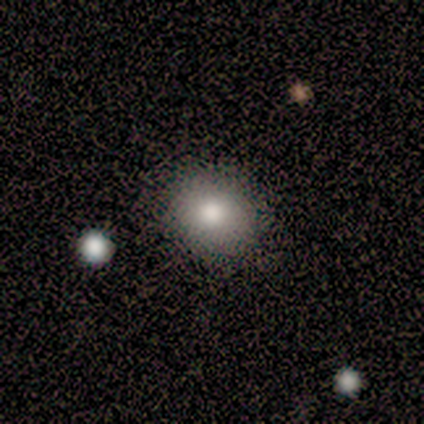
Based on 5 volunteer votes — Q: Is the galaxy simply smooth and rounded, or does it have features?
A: smooth — 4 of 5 (80%).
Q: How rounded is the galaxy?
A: round — 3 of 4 (75%).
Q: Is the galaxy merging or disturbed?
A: none — 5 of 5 (100%).